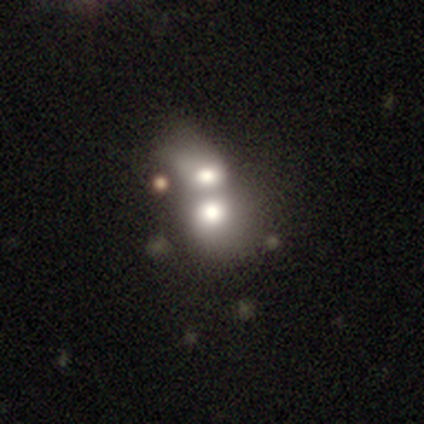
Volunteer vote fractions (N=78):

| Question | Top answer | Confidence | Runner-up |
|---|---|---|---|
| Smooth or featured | smooth | 67% | featured or disk (27%) |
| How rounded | round | 52% | in between (44%) |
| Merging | merger | 70% | none (3%) |